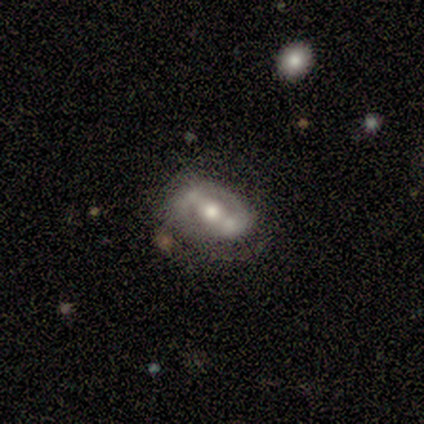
smooth-or-featured: featured or disk: 67% | smooth: 22% | star or artifact: 11%
  disk-edge-on: no: 100% | yes: 0%
    bar: strong: 83% | weak: 17% | no: 0%
    has-spiral-arms: yes: 100% | no: 0%
      spiral-winding: tight: 50% | medium: 33% | loose: 17%
      spiral-arm-count: 2: 83% | 1: 17% | 3: 0% | 4: 0% | more than 4: 0% | can't tell: 0%
    bulge-size: moderate: 83% | large: 17% | dominant: 0% | small: 0% | none: 0%
  merging: none: 50% | major disturbance: 25% | minor disturbance: 12% | merger: 12%